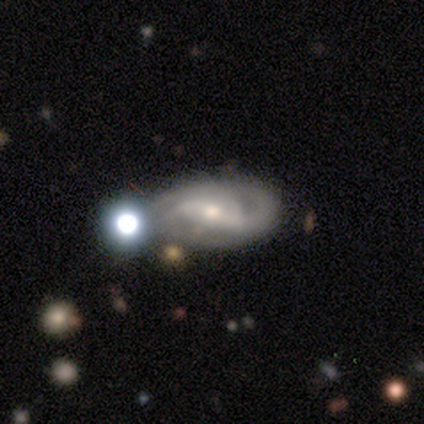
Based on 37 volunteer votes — This appears to be a featured or disk galaxy (89%) with a weak bar (56%), 2 (43%) medium (43%) spiral arms (94%) and a moderate central bulge (53%). Merging: none (63%).